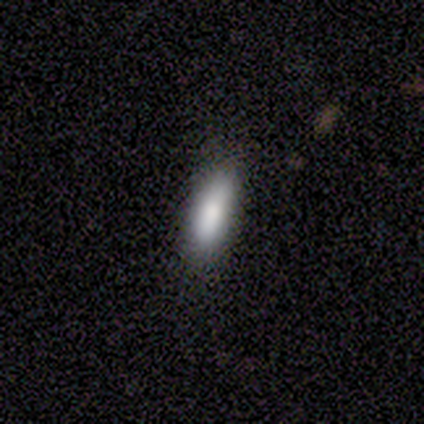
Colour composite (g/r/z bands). It shows a smooth galaxy with no disk features (100%) that is in between round and cigar-shaped (75%). Merging: none (75%).